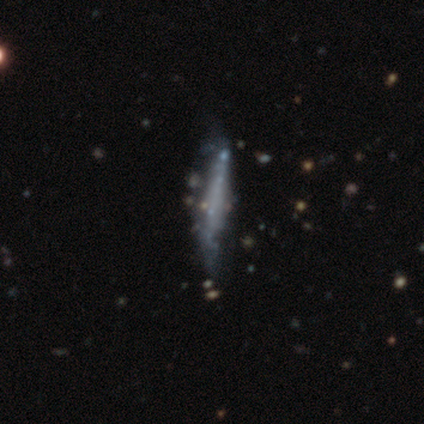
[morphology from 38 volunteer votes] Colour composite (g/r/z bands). It shows a featured or disk galaxy (82%) viewed edge-on (65%) with no central bulge (75%). Merging: none (21%).